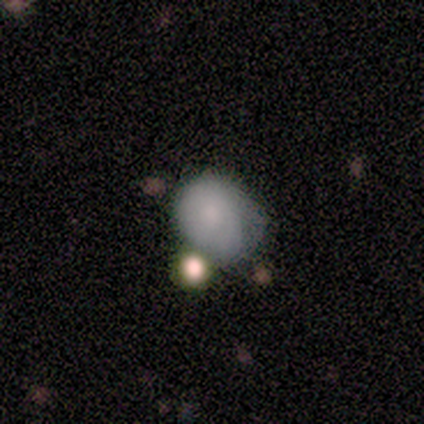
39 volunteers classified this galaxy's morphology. smooth 77%, star or artifact 13%, featured or disk 10%. Down the decision tree: how rounded — in between (57%); merging — minor disturbance (44%).